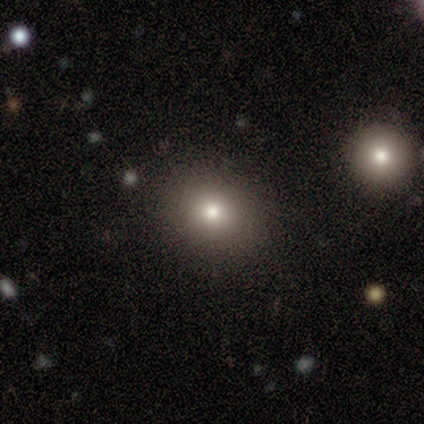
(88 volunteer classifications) This appears to be a smooth galaxy with no disk features (66%) that is round (71%). Merging: none (88%).